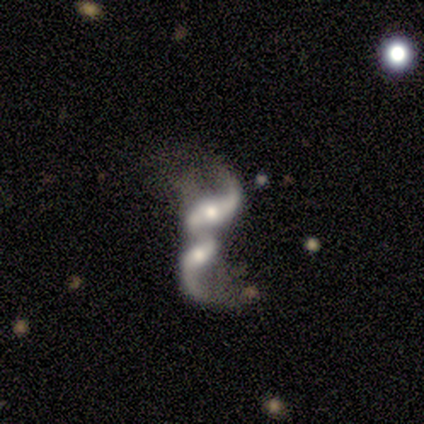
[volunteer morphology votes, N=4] A featured or disk galaxy (75%) with no bar (100%), 2 (100%) loose (100%) spiral arms (67%) and a moderate central bulge (67%). Merging: merger (75%).